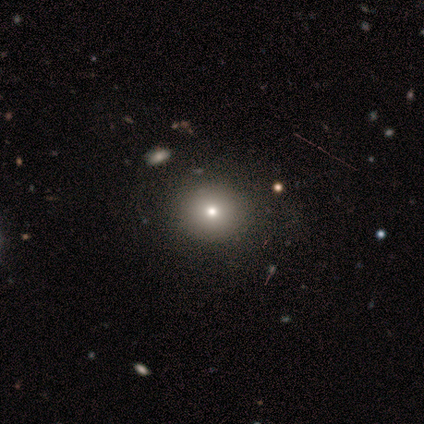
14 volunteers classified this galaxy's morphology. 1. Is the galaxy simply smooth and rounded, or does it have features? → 71% smooth, 21% star or artifact, 7% featured or disk.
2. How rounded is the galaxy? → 80% round, 20% in between, 0% cigar-shaped.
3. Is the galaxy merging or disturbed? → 91% none, 9% minor disturbance, 0% major disturbance, 0% merger.